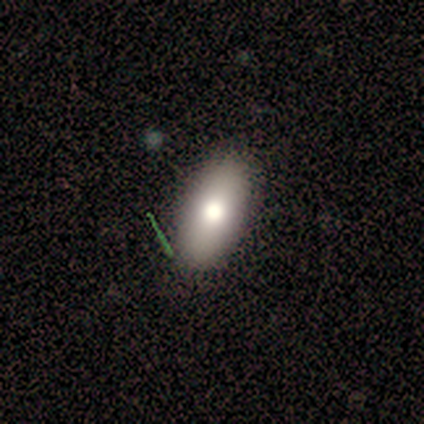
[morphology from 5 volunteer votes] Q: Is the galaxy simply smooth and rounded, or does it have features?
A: smooth — 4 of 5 (80%).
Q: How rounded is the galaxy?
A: in between — 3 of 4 (75%).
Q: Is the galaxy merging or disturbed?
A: none — 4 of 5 (80%).